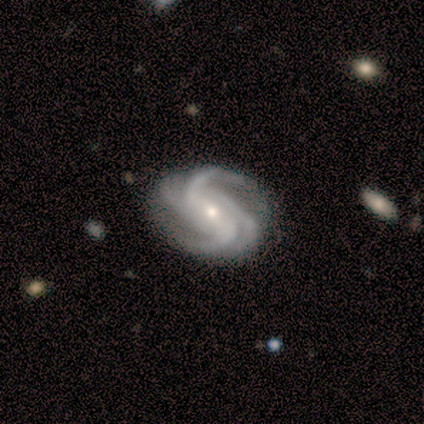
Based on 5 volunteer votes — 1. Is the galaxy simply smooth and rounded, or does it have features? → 100% featured or disk, 0% smooth, 0% star or artifact.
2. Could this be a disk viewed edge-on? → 100% no, 0% yes.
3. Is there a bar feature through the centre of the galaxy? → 40% strong (tied), 40% no (tied), 20% weak.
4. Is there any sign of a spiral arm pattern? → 100% yes, 0% no.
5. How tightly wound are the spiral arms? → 60% medium, 40% tight, 0% loose.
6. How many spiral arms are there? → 60% 4, 20% 2, 20% 3, 0% 1, 0% more than 4, 0% can't tell.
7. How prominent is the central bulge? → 60% small, 40% moderate, 0% dominant, 0% large, 0% none.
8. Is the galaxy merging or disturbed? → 100% none, 0% minor disturbance, 0% major disturbance, 0% merger.